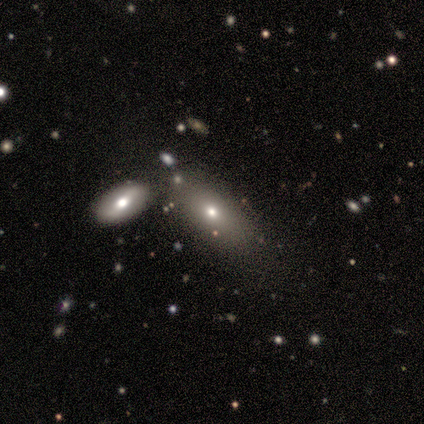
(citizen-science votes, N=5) smooth_or_featured: smooth (p=0.40) [tied with: star or artifact p=0.40]
how_rounded: in between (p=1.00)
merging: none (p=1.00)